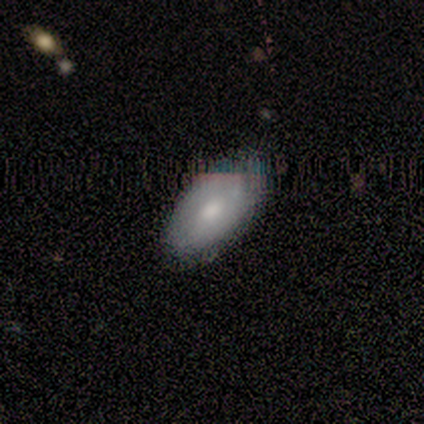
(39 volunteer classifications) This appears to be a smooth galaxy with no disk features (69%) that is in between round and cigar-shaped (96%). Merging: none (81%).